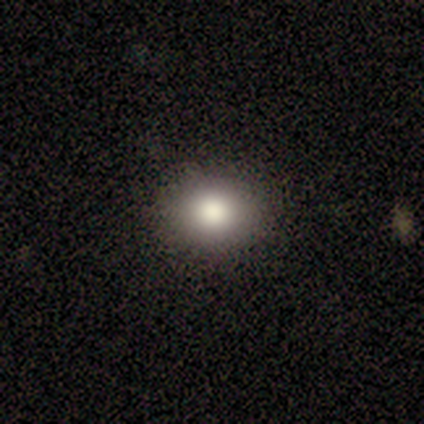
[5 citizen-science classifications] A smooth galaxy with no disk features (80%) that is round (50%, tied with in between). Merging: none (100%).